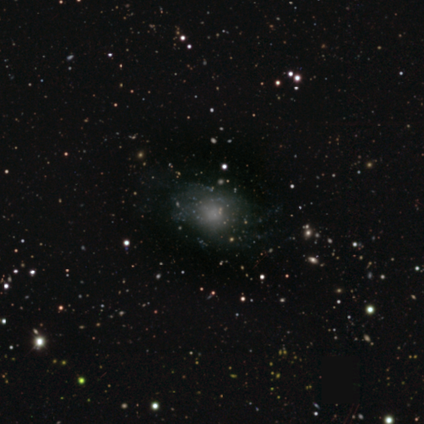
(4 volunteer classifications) This is likely a smooth galaxy (75%). How rounded: likely round (67%). Merging: likely none (75%).